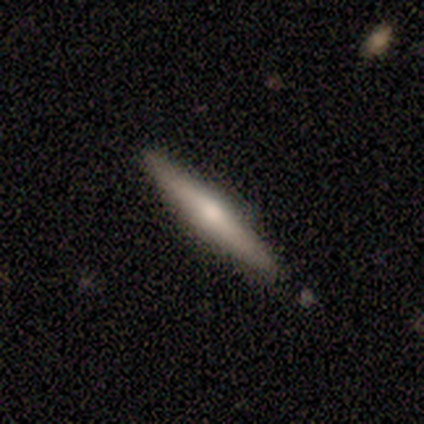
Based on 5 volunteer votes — A smooth galaxy with no disk features (60%) that is cigar-shaped (100%). Merging: none (100%).